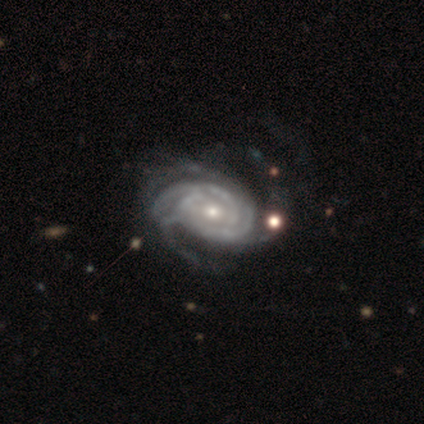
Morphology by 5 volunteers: featured or disk 100%, smooth 0%, star or artifact 0%. Down the decision tree: edge-on disk — no (100%); bar — no (80%); spiral arms — yes (100%); spiral arm count — 2 (20%, tied with 3, 4, more than 4 and can't tell); spiral winding — tight (100%); bulge size — moderate (60%); merging — none (80%).